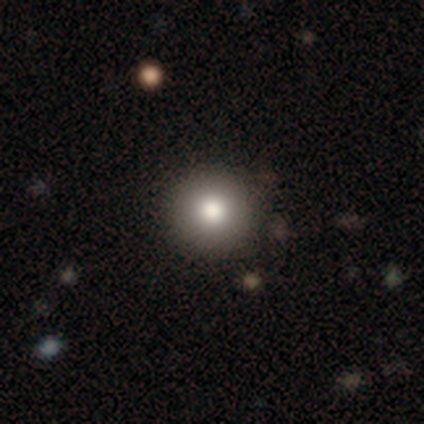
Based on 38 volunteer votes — Smooth or featured?
  - smooth: 84% *
  - featured or disk: 11%
  - star or artifact: 5%
How rounded?
  - round: 97% *
  - in between: 3%
  - cigar-shaped: 0%
Merging?
  - none: 69% *
  - merger: 6%
  - minor disturbance: 0%
  - major disturbance: 0%